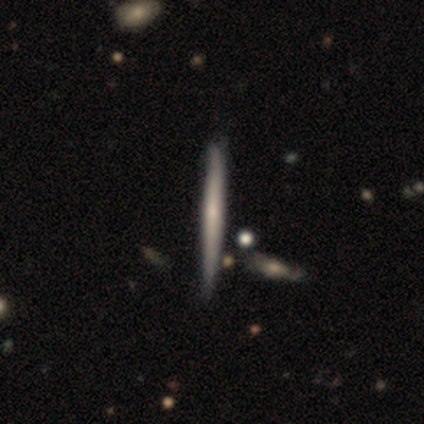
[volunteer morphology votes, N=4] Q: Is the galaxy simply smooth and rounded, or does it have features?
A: smooth — 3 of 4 (75%).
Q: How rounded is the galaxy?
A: cigar-shaped — 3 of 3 (100%).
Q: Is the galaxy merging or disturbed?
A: none — 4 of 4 (100%).